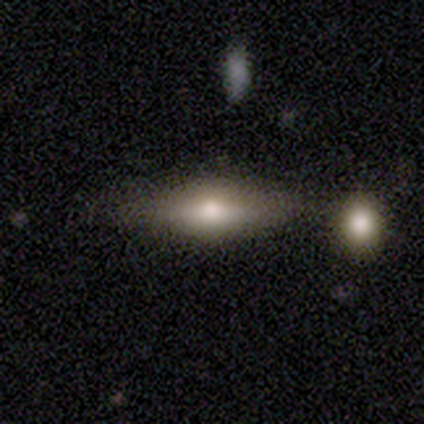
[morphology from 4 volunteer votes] Q: Smooth or featured?
A: featured or disk (75%); runner-up: smooth (25%)
Q: Edge-on disk?
A: yes (100%)
Q: Edge-on bulge?
A: rounded (100%)
Q: Merging?
A: minor disturbance (75%); runner-up: none (25%)